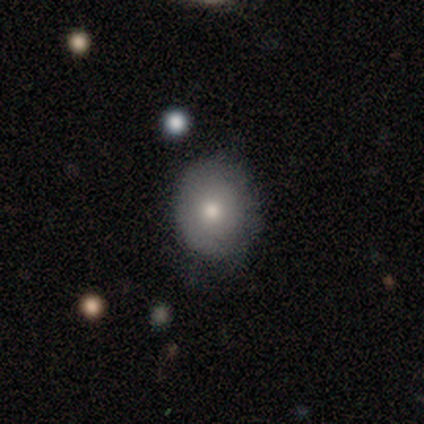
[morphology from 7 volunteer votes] Overall: smooth (57%; star or artifact 29%). How rounded: round (50%, tied with in between). Merging: none (100%).